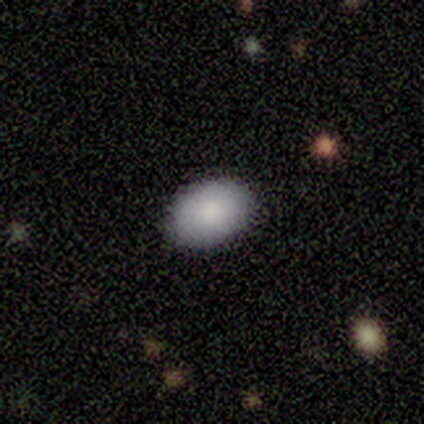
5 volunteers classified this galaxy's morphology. Smooth or featured? smooth (100%)
How rounded? in between (100%)
Merging? minor disturbance (60%)